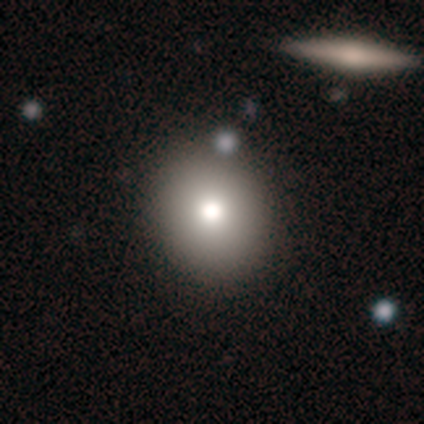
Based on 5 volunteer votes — This appears to be a smooth galaxy with no disk features (100%) that is round (80%). Merging: none (100%).